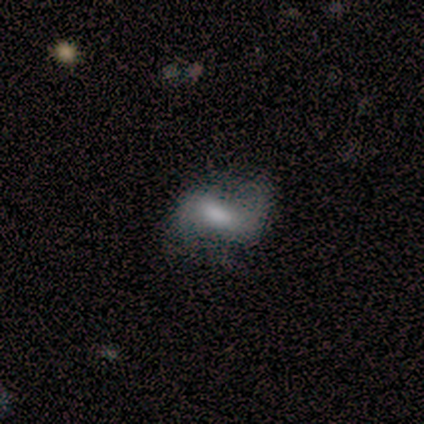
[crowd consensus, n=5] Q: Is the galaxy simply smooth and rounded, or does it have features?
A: featured or disk — 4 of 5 (80%).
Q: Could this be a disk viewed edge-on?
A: no — 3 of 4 (75%).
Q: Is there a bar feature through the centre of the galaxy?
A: weak — 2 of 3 (67%).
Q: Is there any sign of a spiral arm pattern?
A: yes — 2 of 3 (67%).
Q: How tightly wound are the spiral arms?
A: tight — 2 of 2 (100%).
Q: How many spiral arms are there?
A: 2 — 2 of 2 (100%).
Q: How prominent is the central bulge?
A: moderate — 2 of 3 (67%).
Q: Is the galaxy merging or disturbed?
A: minor disturbance — 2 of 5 (40%, tied with major disturbance).